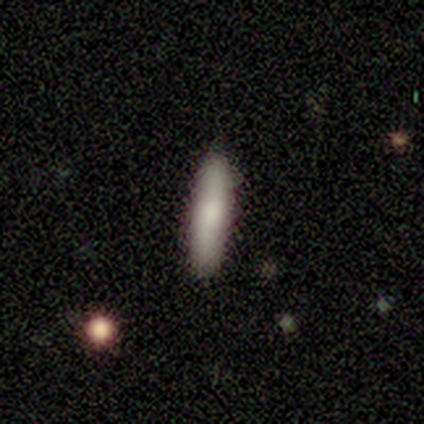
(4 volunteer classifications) This appears to be a smooth galaxy with no disk features (100%) that is cigar-shaped (100%). Merging: none (75%).